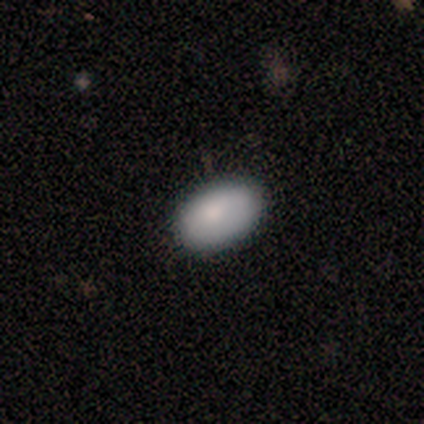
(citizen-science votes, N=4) Smooth or featured? smooth (100%)
How rounded? in between (75%)
Merging? none (75%)